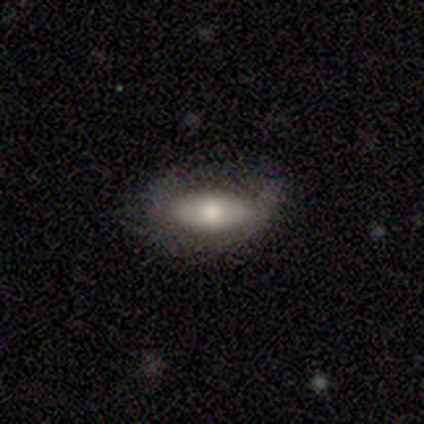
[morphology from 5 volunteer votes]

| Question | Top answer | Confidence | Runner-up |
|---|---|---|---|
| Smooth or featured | featured or disk | 60% | smooth (40%) |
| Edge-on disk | no | 67% | yes (33%) |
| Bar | strong | 50% | tied: no (50%) |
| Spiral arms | no | 100% | — |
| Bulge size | large | 100% | — |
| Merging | none | 80% | minor disturbance (20%) |